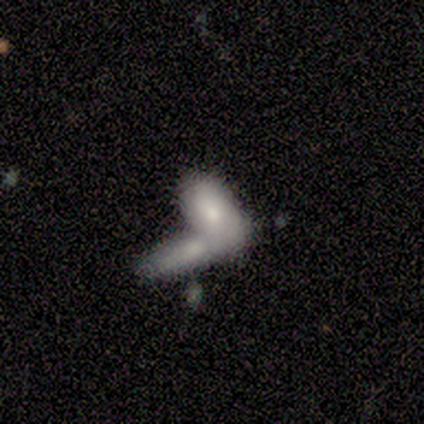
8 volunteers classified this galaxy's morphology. This is likely a smooth galaxy (75%). How rounded: clearly in between (83%). Merging: likely merger (62%).